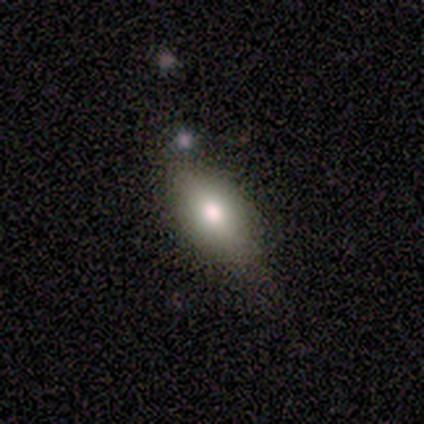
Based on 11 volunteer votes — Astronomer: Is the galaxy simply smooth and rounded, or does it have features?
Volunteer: smooth — 82%.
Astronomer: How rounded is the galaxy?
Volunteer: in between — 89%.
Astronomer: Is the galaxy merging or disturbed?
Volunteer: none — 100%.